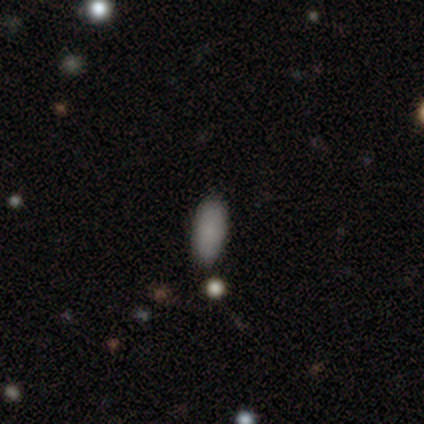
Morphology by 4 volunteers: Smooth or featured: smooth — 100%
How rounded: in between — 100%
Merging: none — 100%